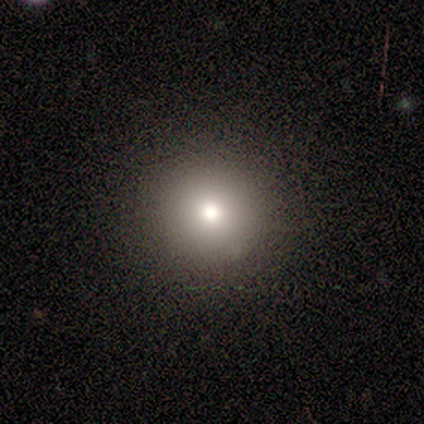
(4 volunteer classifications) A smooth galaxy with no disk features (50%) that is round (100%). Merging: none (100%).